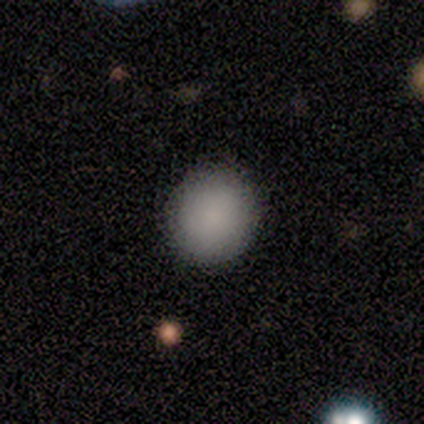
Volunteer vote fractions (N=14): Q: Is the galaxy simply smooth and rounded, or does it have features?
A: smooth — 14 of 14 (100%).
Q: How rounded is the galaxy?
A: round — 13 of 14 (93%).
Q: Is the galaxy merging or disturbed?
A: none — 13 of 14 (93%).